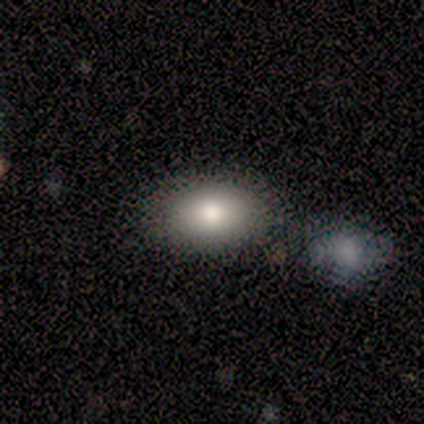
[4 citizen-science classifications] Overall: smooth (100%). How rounded: in between (100%). Merging: none (50%, tied with merger).